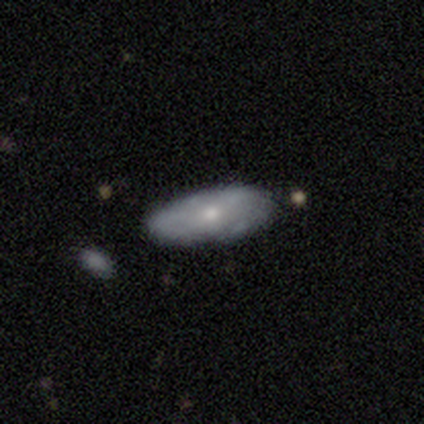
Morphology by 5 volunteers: type=smooth (60%); roundness=in between (100%); merging=none (75%).